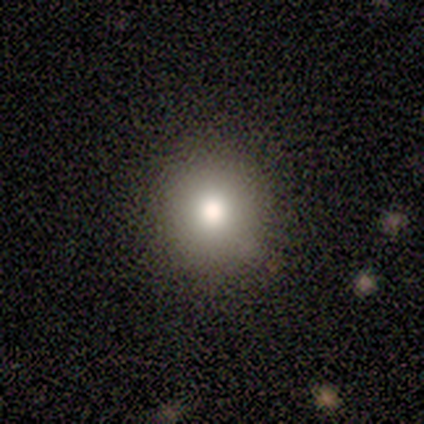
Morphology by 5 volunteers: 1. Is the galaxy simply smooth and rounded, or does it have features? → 100% smooth, 0% featured or disk, 0% star or artifact.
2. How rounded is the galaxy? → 80% round, 20% in between, 0% cigar-shaped.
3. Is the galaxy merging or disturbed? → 100% none, 0% minor disturbance, 0% major disturbance, 0% merger.